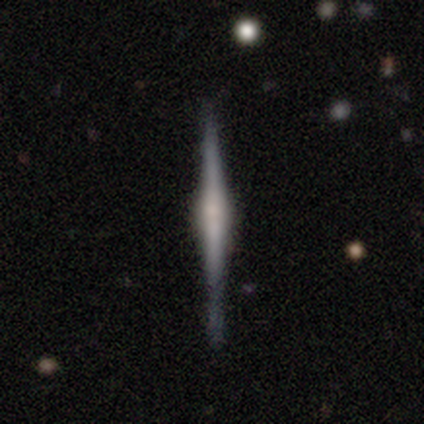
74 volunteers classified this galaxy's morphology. Overall: featured or disk (91%). Edge-on disk: yes (99%). Edge-on bulge: rounded (67%; boxy 27%). Merging: none (89%).